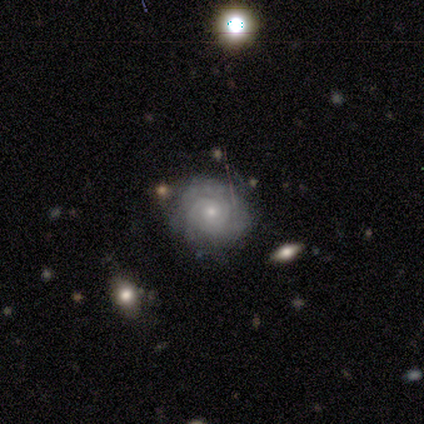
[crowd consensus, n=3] This is likely a featured or disk galaxy (67%). It is clearly not viewed edge-on (100%). Bar: clearly no (100%). Spiral arm pattern: clearly yes (100%). Spiral arm count: possibly 2 (50%, tied with 4). Spiral winding: clearly tight (100%). Central bulge: clearly small (100%). Merging: clearly none (100%).